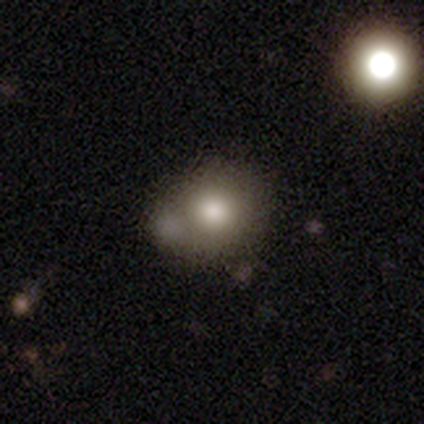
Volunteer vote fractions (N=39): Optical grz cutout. It shows a smooth galaxy with no disk features (77%) that is round (80%). Merging: none (45%).